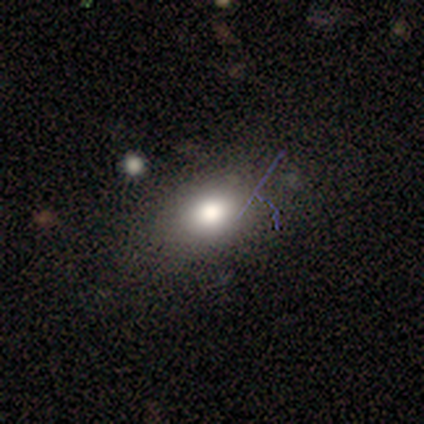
This appears to be a smooth galaxy with no disk features (100%) that is round (50%, tied with in between). Merging: none (100%).